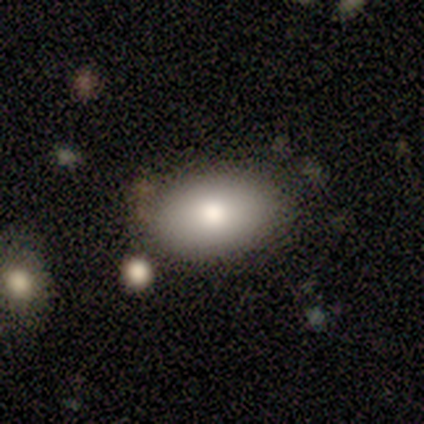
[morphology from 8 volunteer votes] A smooth galaxy with no disk features (88%) that is in between round and cigar-shaped (100%). Merging: none (62%).